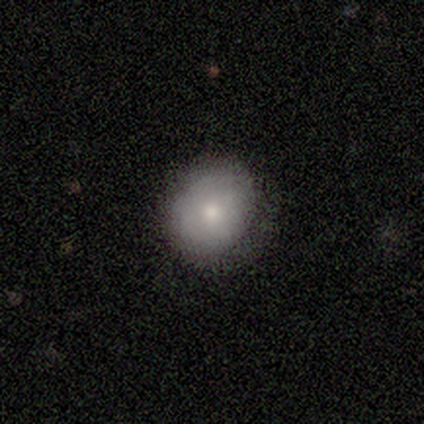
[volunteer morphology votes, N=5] This appears to be a smooth galaxy with no disk features (60%) that is round (100%). Merging: none (100%).